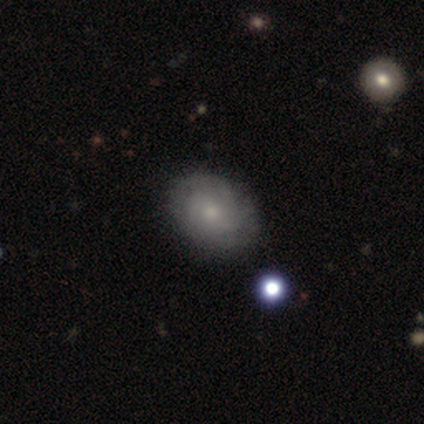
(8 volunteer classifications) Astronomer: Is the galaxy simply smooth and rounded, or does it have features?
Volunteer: featured or disk — 50% (runner-up: smooth, 38%).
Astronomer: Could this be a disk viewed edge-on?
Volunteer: no — 100%.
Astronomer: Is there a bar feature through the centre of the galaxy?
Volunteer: no — 50%.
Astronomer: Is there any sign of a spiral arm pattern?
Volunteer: yes — 100%.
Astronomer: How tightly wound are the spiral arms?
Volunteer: tight — 75%.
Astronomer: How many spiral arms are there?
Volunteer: can't tell — 50%.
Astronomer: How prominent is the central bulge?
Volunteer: moderate — 50%, tied with small at 50%.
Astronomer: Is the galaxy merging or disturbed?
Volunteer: none — 71%.